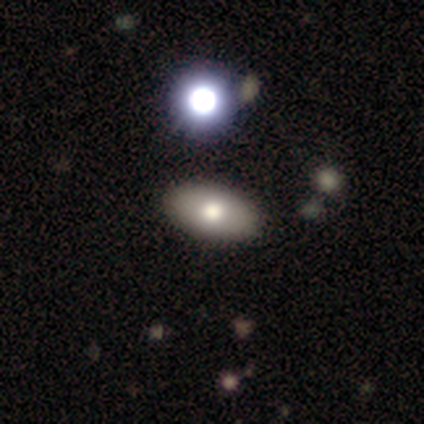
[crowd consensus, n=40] This appears to be a smooth galaxy with no disk features (75%) that is in between round and cigar-shaped (93%). Merging: none (56%).